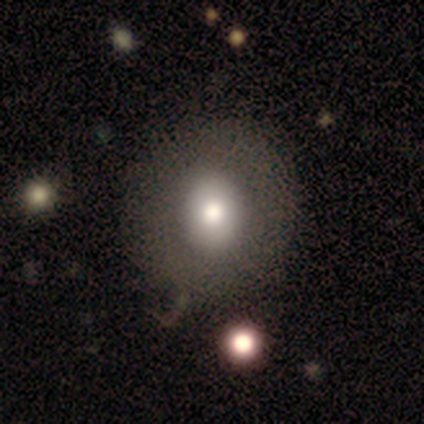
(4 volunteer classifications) Smooth or featured? smooth (75%)
How rounded? round (67%)
Merging? none (100%)